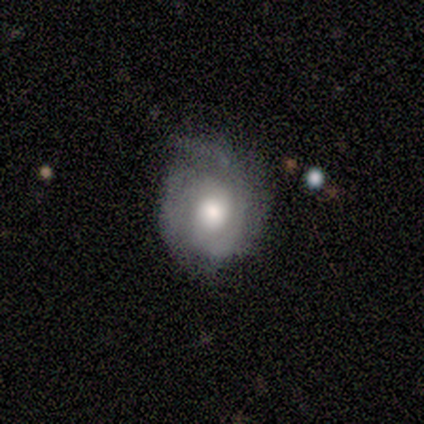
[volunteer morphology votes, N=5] featured or disk 60%, smooth 40%, star or artifact 0%. Down the decision tree: edge-on disk — no (100%); bar — no (100%); spiral arms — yes (67%); spiral arm count — can't tell (100%); spiral winding — medium (50%, tied with loose); bulge size — moderate (67%); merging — minor disturbance (80%).